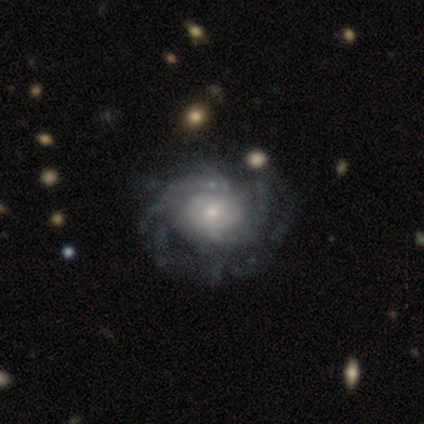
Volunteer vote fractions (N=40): Morphology: type=featured or disk (92%); edge-on=no (100%); bar=no (70%); spiral arms=yes (92%); winding=tight (53%); arm count=can't tell (50%); bulge=small (54%); merging=none (45%).